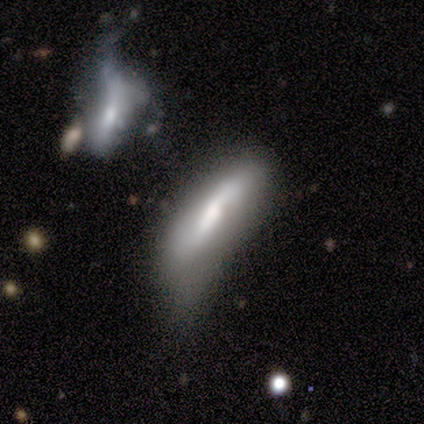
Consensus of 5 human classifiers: A smooth galaxy with no disk features (60%) that is cigar-shaped (67%).

Vote fractions:
- Smooth or featured? smooth: 60% / featured or disk: 40% / star or artifact: 0%
- How rounded? cigar-shaped: 67% / in between: 33% / round: 0%
- Merging? none: 40% (tied) / minor disturbance: 40% (tied) / major disturbance: 20% / merger: 0%